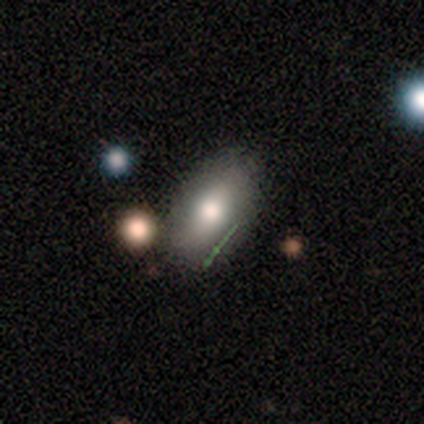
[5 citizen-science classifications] This appears to be a smooth galaxy with no disk features (80%) that is in between round and cigar-shaped (75%). Merging: none (80%).